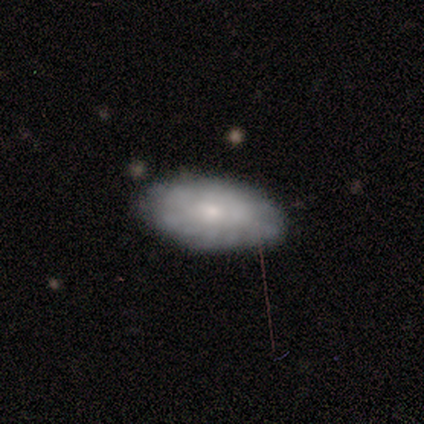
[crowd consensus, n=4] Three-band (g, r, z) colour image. It shows a featured or disk galaxy (75%) with no bar (67%), 2 (50%, tied with can't tell) medium (100%) spiral arms (67%) and a small central bulge (100%). Merging: none (100%).